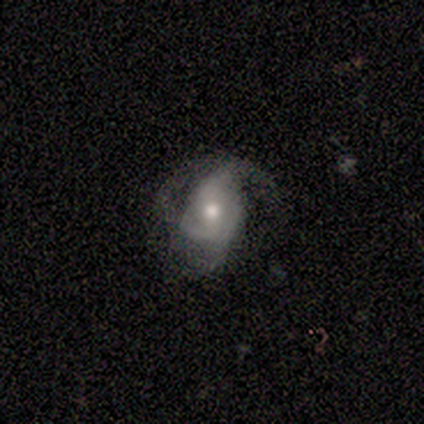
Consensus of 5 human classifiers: featured or disk 100%, smooth 0%, star or artifact 0%. Down the decision tree: edge-on disk — no (100%); bar — weak (60%); spiral arms — yes (80%); spiral arm count — 2 (50%); spiral winding — medium (50%); bulge size — moderate (80%); merging — none (60%).